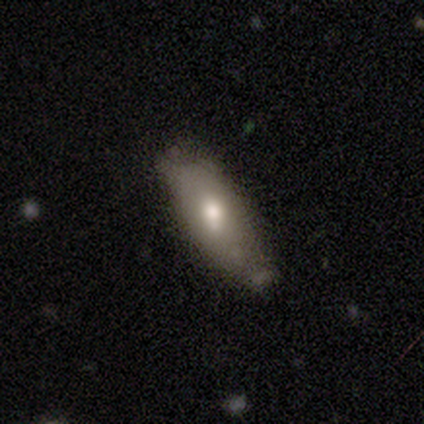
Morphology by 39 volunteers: type=smooth (62%); roundness=in between (58%); merging=none (61%).